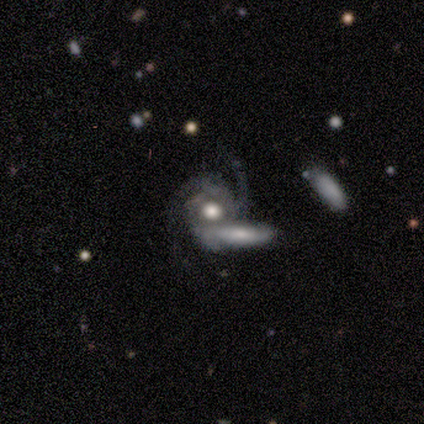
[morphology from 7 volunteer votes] featured or disk 100%, smooth 0%, star or artifact 0%. Down the decision tree: edge-on disk — no (100%); bar — no (86%); spiral arms — yes (100%); spiral arm count — 3 (43%); spiral winding — medium (57%); bulge size — moderate (57%); merging — none (43%).